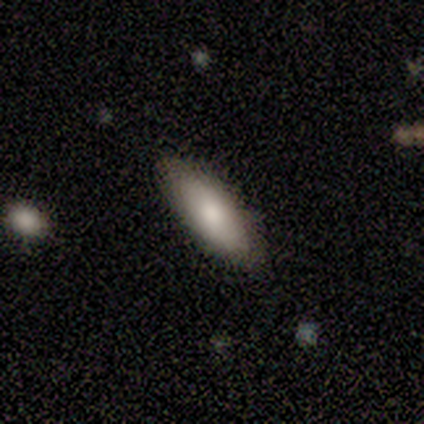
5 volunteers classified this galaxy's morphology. A smooth galaxy with no disk features (40%, tied with featured or disk) that is in between round and cigar-shaped (50%, tied with cigar-shaped). Merging: none (100%).